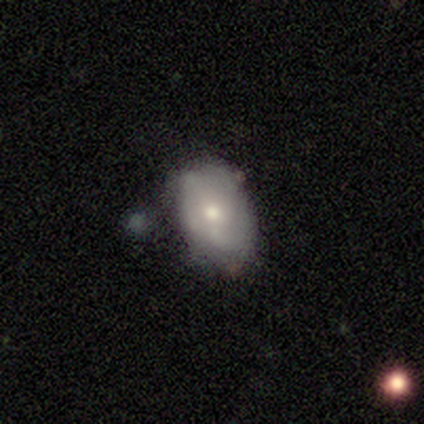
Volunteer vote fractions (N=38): Volunteers were most divided on "merging": none: 44%, minor disturbance: 35%, merger: 15%, major disturbance: 6%. More confident: how rounded — in between (95%); smooth or featured — smooth (53%).